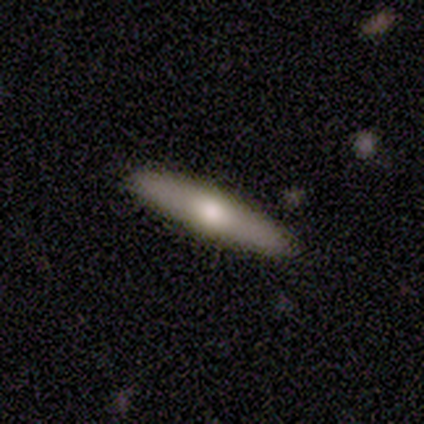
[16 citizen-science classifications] This appears to be a smooth galaxy with no disk features (50%, tied with featured or disk) that is cigar-shaped (88%). Merging: none (94%).